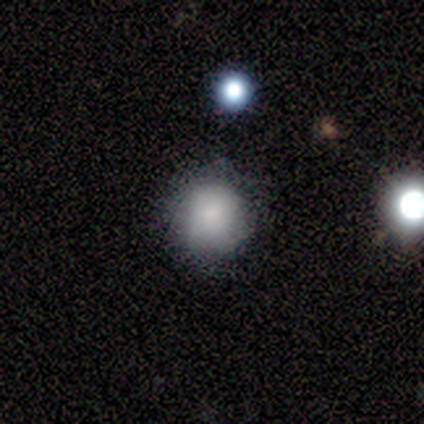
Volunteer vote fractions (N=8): Smooth or featured? 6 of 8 (75%) said smooth. How rounded? 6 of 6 (100%) said round. Merging? 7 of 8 (88%) said none.